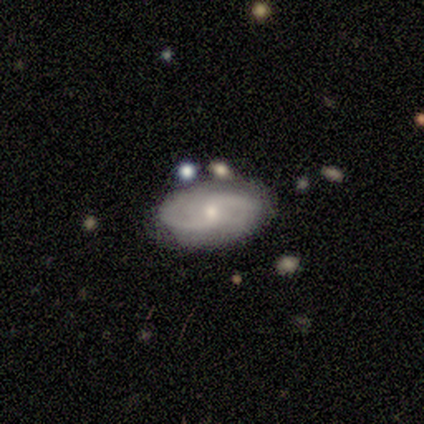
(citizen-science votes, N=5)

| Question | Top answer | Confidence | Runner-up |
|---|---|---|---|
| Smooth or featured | featured or disk | 60% | smooth (40%) |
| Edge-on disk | no | 100% | — |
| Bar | no | 67% | weak (33%) |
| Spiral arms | yes | 100% | — |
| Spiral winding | medium | 67% | tight (33%) |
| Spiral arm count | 2 | 67% | can't tell (33%) |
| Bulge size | moderate | 67% | small (33%) |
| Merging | none | 80% | minor disturbance (20%) |